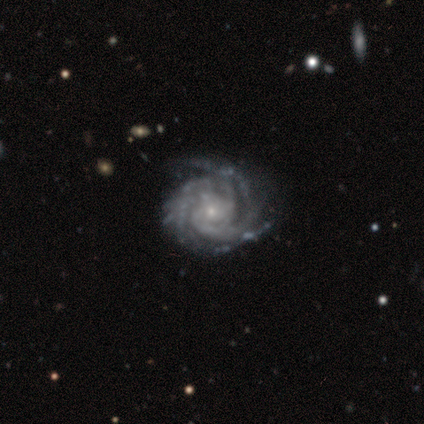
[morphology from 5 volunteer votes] This appears to be a featured or disk galaxy (100%) with a weak bar (60%), 4 (60%) tight (40%, tied with medium) spiral arms (100%) and a small central bulge (100%). Merging: none (80%).